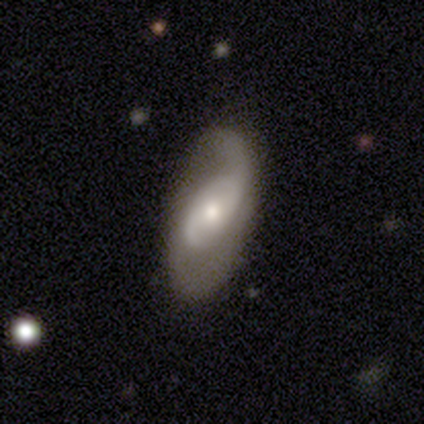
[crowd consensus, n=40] Smooth or featured: featured or disk — 70% (smooth — 25%)
Edge-on disk: no — 96% (yes — 4%)
Bar: weak — 48% (no — 44%)
Spiral arms: yes — 85% (no — 15%)
Spiral winding: tight — 35% (tied with loose — 35%)
Spiral arm count: 2 — 65% (1 — 17%)
Bulge size: moderate — 59% (small — 30%)
Merging: none — 55% (major disturbance — 24%)